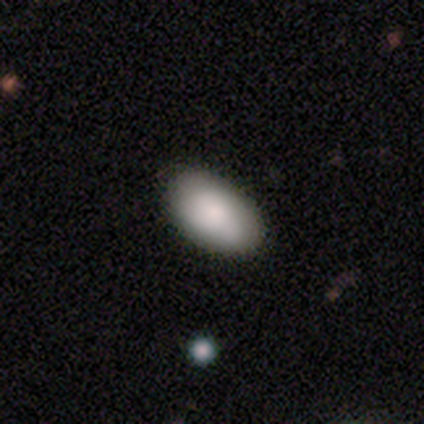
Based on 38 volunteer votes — Overall: smooth (76%). How rounded: in between (93%). Merging: none (57%).